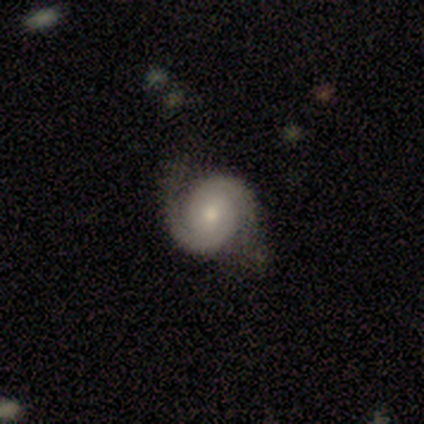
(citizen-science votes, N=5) Volunteers were most divided on "bar": weak: 67%, no: 33%, strong: 0%. More confident: spiral arms — yes (100%); spiral arm count — 2 (100%); smooth or featured — featured or disk (80%); edge-on disk — no (75%); merging — none (75%); spiral winding — medium (67%); bulge size — small (67%).